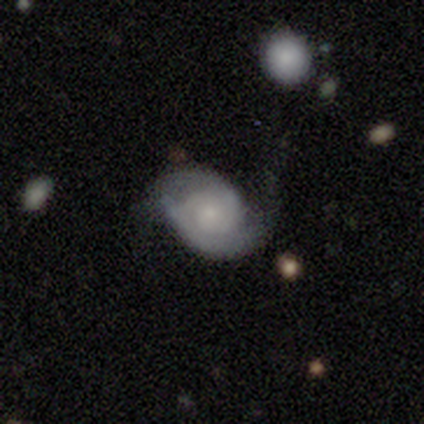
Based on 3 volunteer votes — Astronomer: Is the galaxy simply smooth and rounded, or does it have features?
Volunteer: featured or disk — 100%.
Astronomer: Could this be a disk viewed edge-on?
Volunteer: no — 100%.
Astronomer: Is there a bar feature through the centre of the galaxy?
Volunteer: no — 67%.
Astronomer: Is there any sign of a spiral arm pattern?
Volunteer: yes — 100%.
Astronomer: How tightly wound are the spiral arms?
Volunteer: tight — 67%.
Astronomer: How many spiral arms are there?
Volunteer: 2 — 67%.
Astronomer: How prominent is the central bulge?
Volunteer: small — 100%.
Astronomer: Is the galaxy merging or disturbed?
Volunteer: none — 33%, tied with minor disturbance and major disturbance at 33%.